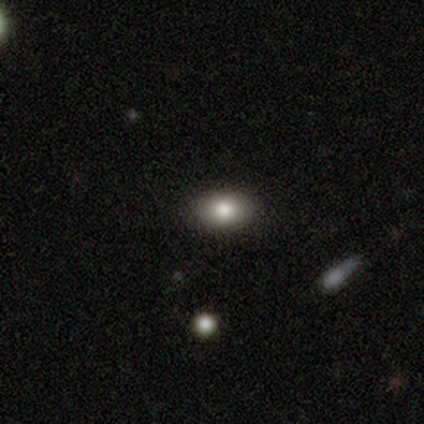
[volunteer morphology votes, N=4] Volunteers were most divided on "smooth or featured": star or artifact: 50%, smooth: 25%, featured or disk: 25%.